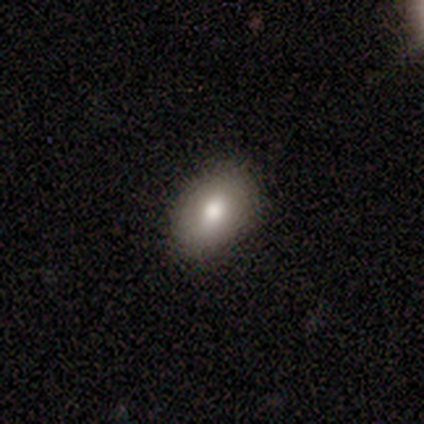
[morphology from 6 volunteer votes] Overall: smooth (83%). How rounded: in between (60%; round 40%). Merging: none (100%).